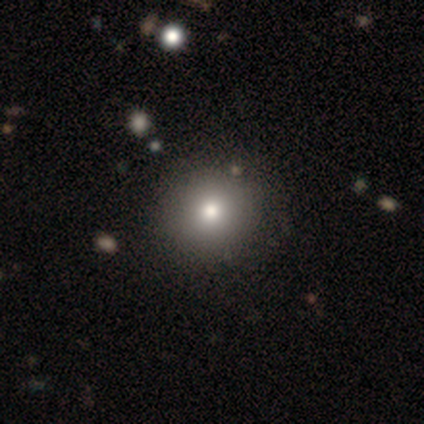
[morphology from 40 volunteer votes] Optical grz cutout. It shows a smooth galaxy with no disk features (82%) that is round (94%). Merging: none (68%).